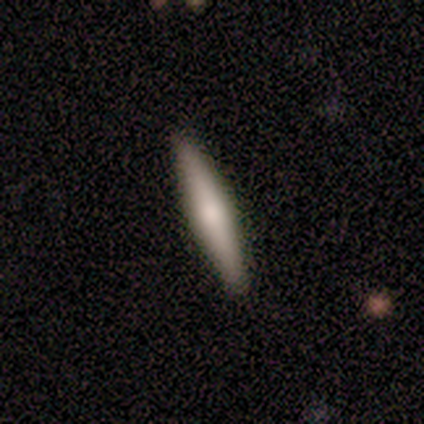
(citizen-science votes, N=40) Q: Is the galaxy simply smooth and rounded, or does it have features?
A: smooth — 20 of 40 (50%).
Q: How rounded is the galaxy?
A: cigar-shaped — 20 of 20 (100%).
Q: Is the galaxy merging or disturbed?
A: none — 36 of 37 (97%).